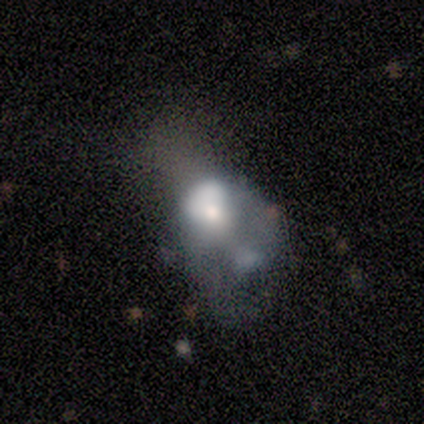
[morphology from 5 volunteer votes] Smooth or featured: featured or disk — 100%
Edge-on disk: no — 100%
Bar: no — 80% (weak — 20%)
Spiral arms: no — 100%
Bulge size: large — 40% (tied with moderate — 40%)
Merging: major disturbance — 60% (merger — 40%)